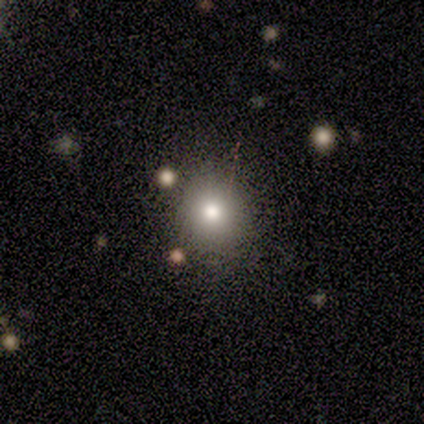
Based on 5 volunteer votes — This appears to be a smooth galaxy with no disk features (80%) that is round (100%). Merging: none (100%).